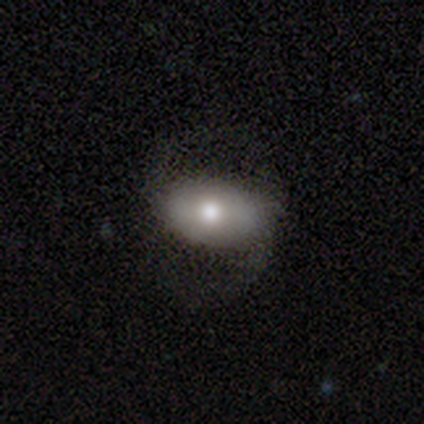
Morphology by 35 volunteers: Smooth or featured? 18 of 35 (51%) said smooth. How rounded? 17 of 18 (94%) said in between. Merging? 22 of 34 (65%) said none.